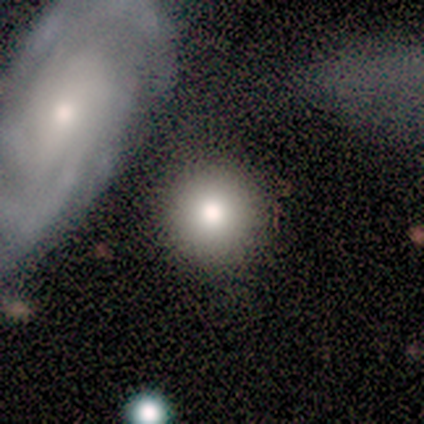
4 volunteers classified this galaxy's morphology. A smooth galaxy with no disk features (100%) that is round (100%). Merging: none (50%, tied with merger).